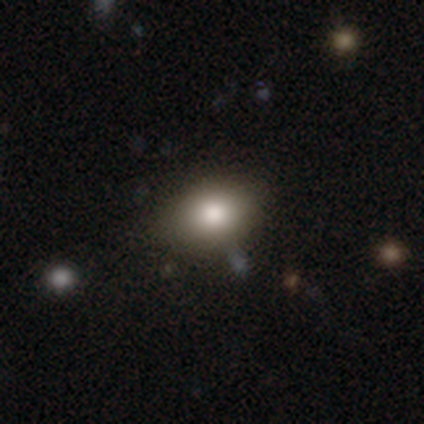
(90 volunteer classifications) This is likely a smooth galaxy (69%). How rounded: likely in between (66%). Merging: likely none (80%).